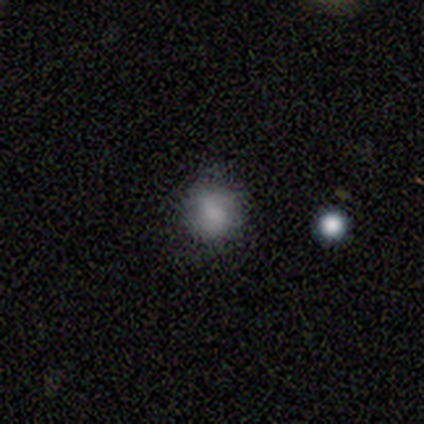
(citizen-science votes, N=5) This is clearly a smooth galaxy (100%). How rounded: clearly round (100%). Merging: clearly none (80%).